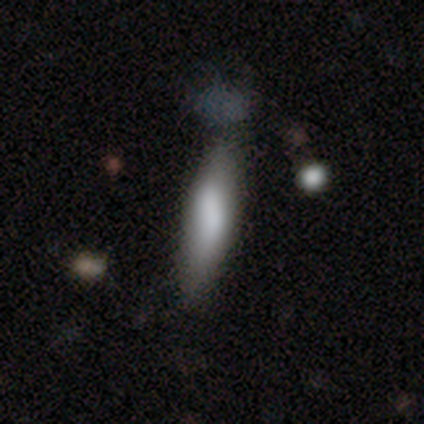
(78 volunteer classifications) Smooth or featured? smooth (78%)
How rounded? cigar-shaped (74%)
Merging? none (26%)